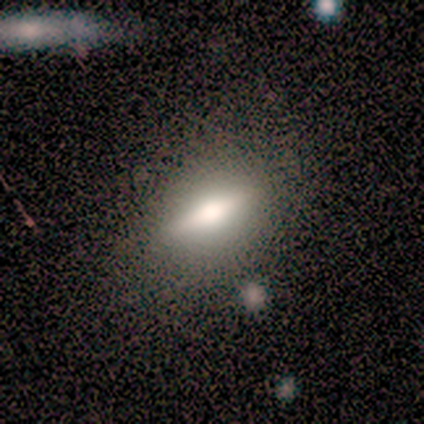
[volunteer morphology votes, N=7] A smooth galaxy with no disk features (71%) that is in between round and cigar-shaped (100%). Merging: none (57%).